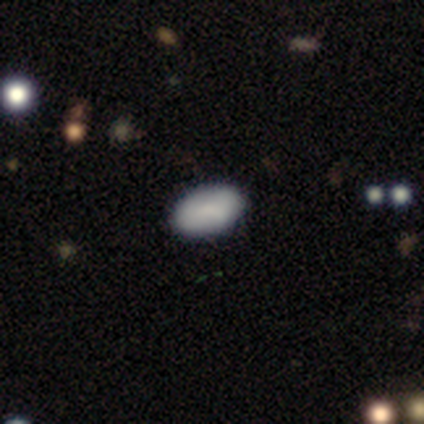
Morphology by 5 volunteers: smooth-or-featured: smooth: 60% | star or artifact: 40% | featured or disk: 0%
  how-rounded: in between: 100% | round: 0% | cigar-shaped: 0%
  merging: none: 100% | minor disturbance: 0% | major disturbance: 0% | merger: 0%